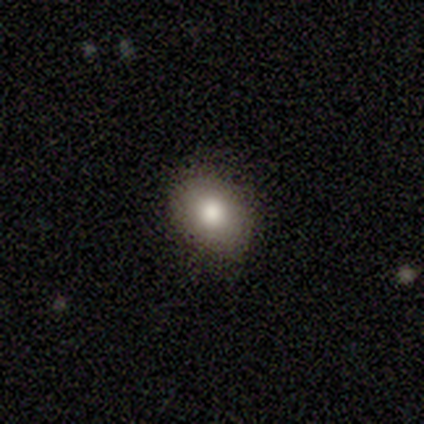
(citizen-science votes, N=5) Morphology: type=smooth (80%); roundness=round (50%, tied with in between); merging=none (100%).